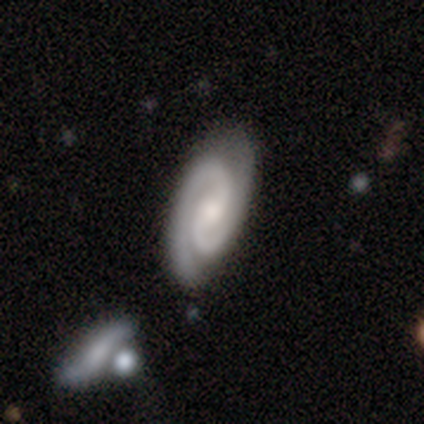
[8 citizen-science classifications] Smooth or featured? featured or disk (100%)
Edge-on disk? no (100%)
Bar? strong (38%, tied with weak)
Spiral arms? yes (100%)
Spiral winding? tight (50%)
Spiral arm count? 2 (100%)
Bulge size? small (50%)
Merging? none (75%)